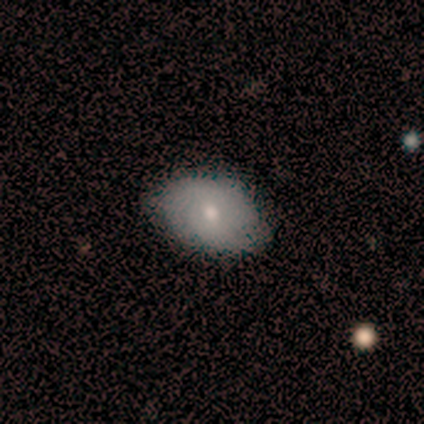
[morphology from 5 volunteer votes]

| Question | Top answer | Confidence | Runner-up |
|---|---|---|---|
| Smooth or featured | smooth | 40% | tied: featured or disk (40%) |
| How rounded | in between | 100% | — |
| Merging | none | 100% | — |